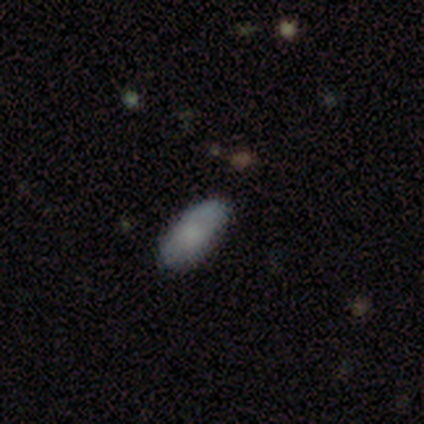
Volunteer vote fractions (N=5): smooth-or-featured: smooth: 60% | star or artifact: 40% | featured or disk: 0%
  how-rounded: in between: 100% | round: 0% | cigar-shaped: 0%
  merging: none: 100% | minor disturbance: 0% | major disturbance: 0% | merger: 0%